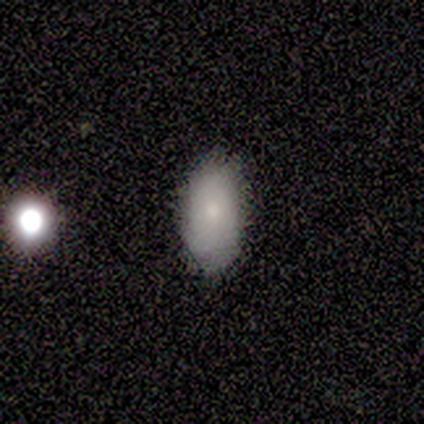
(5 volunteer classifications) Smooth or featured? smooth (80%)
How rounded? in between (100%)
Merging? minor disturbance (60%)